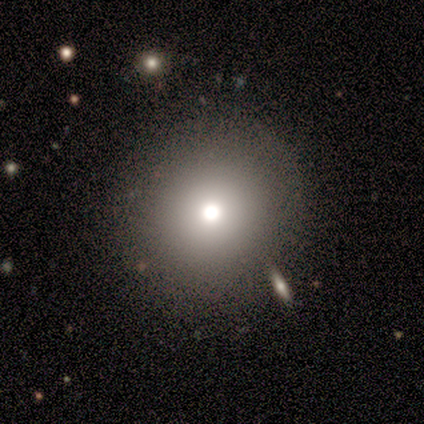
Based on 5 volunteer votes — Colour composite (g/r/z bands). It shows a smooth galaxy with no disk features (100%) that is round (100%). Merging: none (80%).